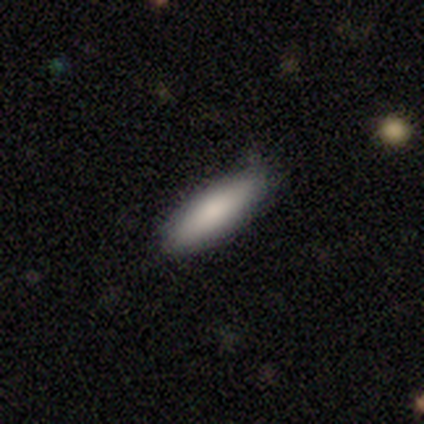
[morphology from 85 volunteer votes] This is clearly a smooth galaxy (84%). How rounded: possibly cigar-shaped (55%). Merging: likely none (76%).